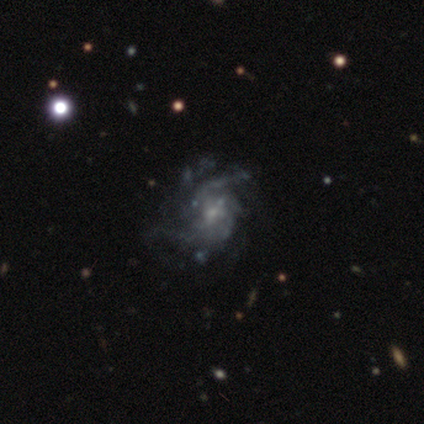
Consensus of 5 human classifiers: Smooth or featured?
  - featured or disk: 100% *
  - smooth: 0%
  - star or artifact: 0%
Edge-on disk?
  - no: 100% *
  - yes: 0%
Bar?
  - no: 80% *
  - weak: 20%
  - strong: 0%
Spiral arms?
  - yes: 80% *
  - no: 20%
Spiral winding?
  - loose: 50% *
  - tight: 25%
  - medium: 25%
Spiral arm count?
  - 2: 50% *
  - 3: 25%
  - can't tell: 25%
  - 1: 0%
  - 4: 0%
  - more than 4: 0%
Bulge size?
  - small: 60% *
  - none: 40%
  - dominant: 0%
  - large: 0%
  - moderate: 0%
Merging?
  - minor disturbance: 40% * (tied)
  - major disturbance: 40% * (tied)
  - none: 20%
  - merger: 0%